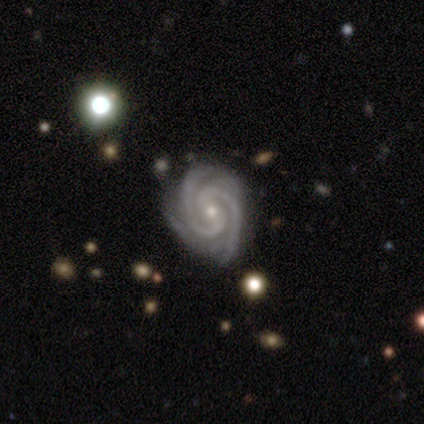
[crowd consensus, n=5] Smooth or featured: featured or disk — 100%
Edge-on disk: no — 100%
Bar: strong — 60% (weak — 20%)
Spiral arms: yes — 100%
Spiral winding: tight — 80% (medium — 20%)
Spiral arm count: 2 — 80% (3 — 20%)
Bulge size: small — 80% (moderate — 20%)
Merging: none — 60% (minor disturbance — 40%)